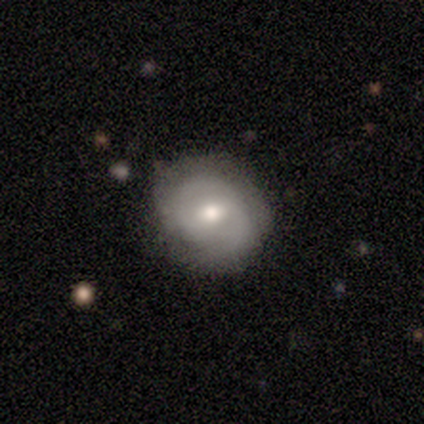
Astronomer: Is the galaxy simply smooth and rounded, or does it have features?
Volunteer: smooth — 60% (runner-up: featured or disk, 40%).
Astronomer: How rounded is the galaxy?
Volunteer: round — 100%.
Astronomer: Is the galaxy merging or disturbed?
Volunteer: none — 100%.